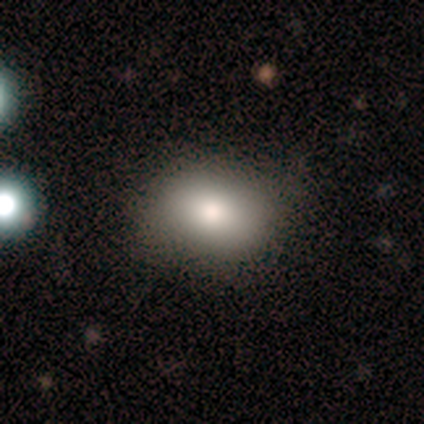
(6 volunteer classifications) This appears to be a smooth galaxy with no disk features (100%) that is in between round and cigar-shaped (67%). Merging: none (50%, tied with minor disturbance).